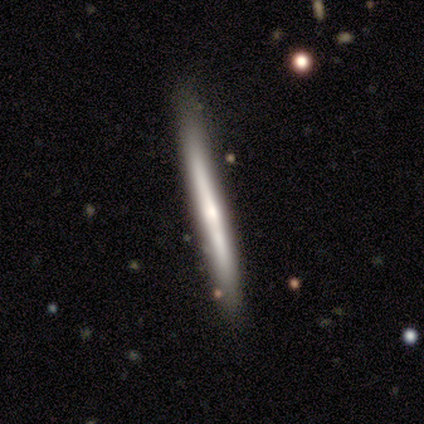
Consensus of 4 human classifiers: A featured or disk galaxy (50%) viewed edge-on (100%) with no central bulge (100%). Merging: none (100%).